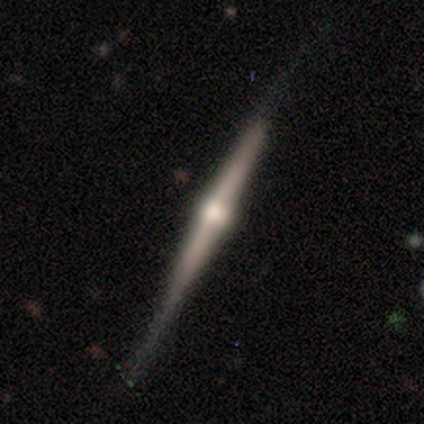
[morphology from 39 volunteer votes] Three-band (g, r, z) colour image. It shows a featured or disk galaxy (92%) viewed edge-on (100%) with a rounded central bulge (89%). Merging: none (59%).